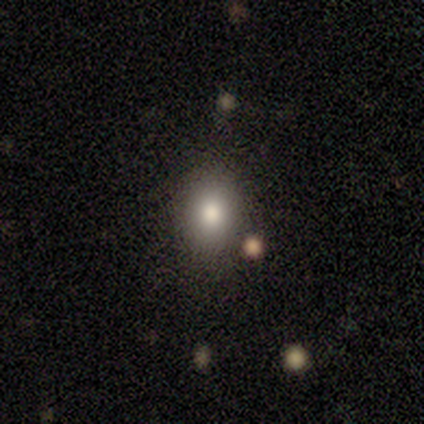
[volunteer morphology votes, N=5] This appears to be a smooth galaxy with no disk features (80%) that is round (50%, tied with in between). Merging: none (75%).